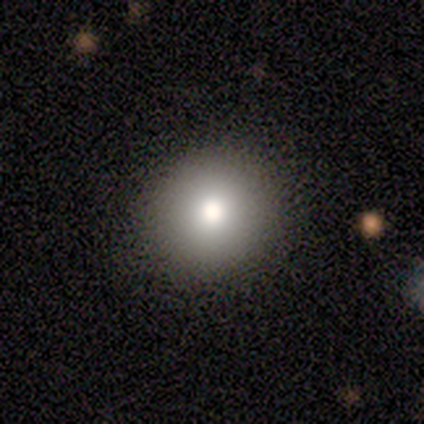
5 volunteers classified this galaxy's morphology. Overall: smooth (80%). How rounded: round (75%). Merging: none (100%).